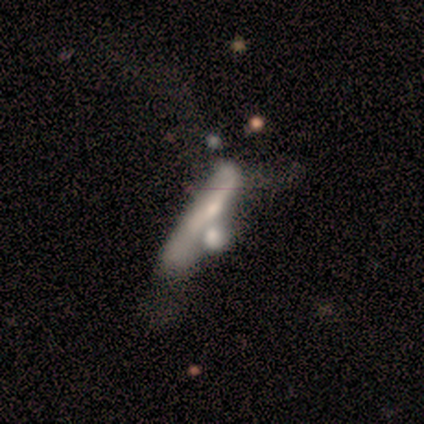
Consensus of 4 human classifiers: Smooth or featured? smooth (50%, tied with featured or disk)
How rounded? cigar-shaped (100%)
Merging? merger (75%)